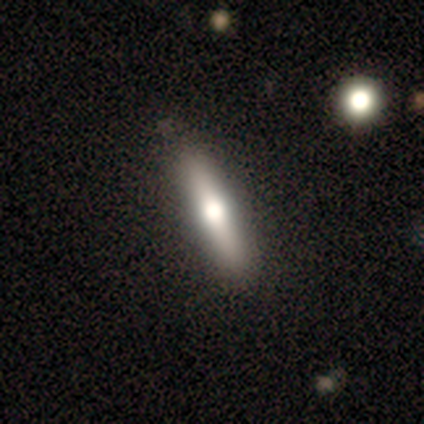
This appears to be a featured or disk galaxy (56%) viewed edge-on (95%) with a rounded central bulge (90%). Merging: none (62%).